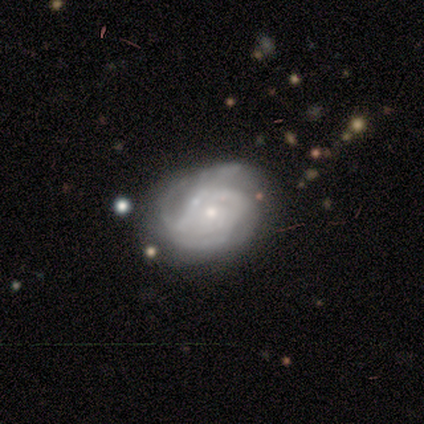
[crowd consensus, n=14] smooth-or-featured: featured or disk: 100% | smooth: 0% | star or artifact: 0%
  disk-edge-on: no: 93% | yes: 7%
    bar: no: 77% | weak: 15% | strong: 8%
    has-spiral-arms: yes: 85% | no: 15%
      spiral-winding: tight: 45% | medium: 36% | loose: 18%
      spiral-arm-count: can't tell: 73% | 2: 18% | 4: 9% | 1: 0% | 3: 0% | more than 4: 0%
    bulge-size: small: 54% | moderate: 38% | large: 8% | dominant: 0% | none: 0%
  merging: none: 50% | minor disturbance: 36% | merger: 14% | major disturbance: 0%